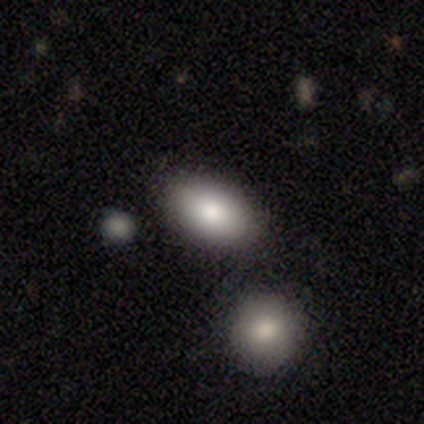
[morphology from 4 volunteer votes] smooth 75%, star or artifact 25%, featured or disk 0%. Down the decision tree: how rounded — in between (100%); merging — none (67%).